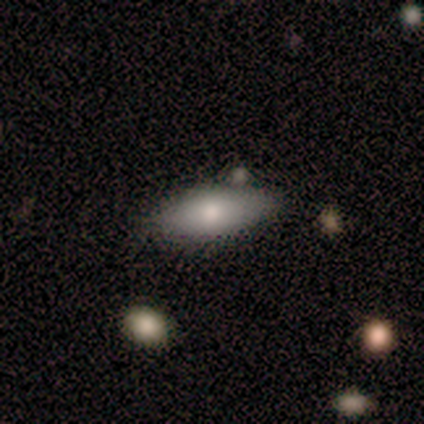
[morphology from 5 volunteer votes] Overall: smooth (60%; featured or disk 20%). How rounded: in between (100%). Merging: none (75%).